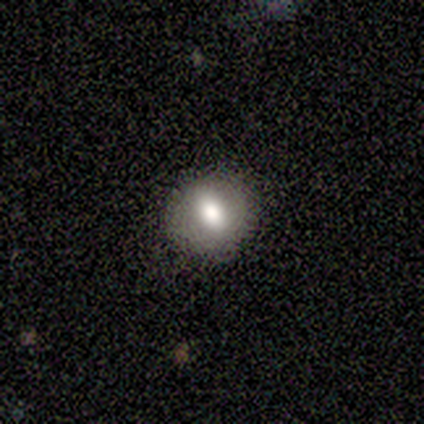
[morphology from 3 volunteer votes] Smooth or featured?
  - smooth: 100% *
  - featured or disk: 0%
  - star or artifact: 0%
How rounded?
  - in between: 67% *
  - round: 33%
  - cigar-shaped: 0%
Merging?
  - none: 100% *
  - minor disturbance: 0%
  - major disturbance: 0%
  - merger: 0%